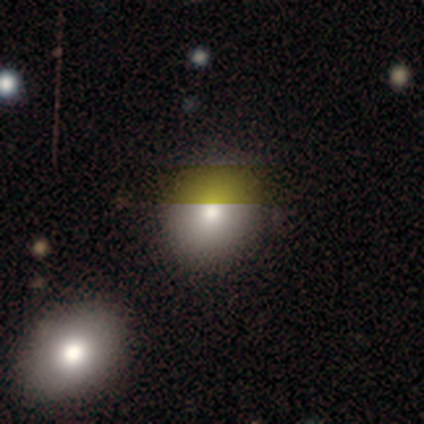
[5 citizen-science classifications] smooth 80%, star or artifact 20%, featured or disk 0%. Down the decision tree: how rounded — in between (75%); merging — none (100%).